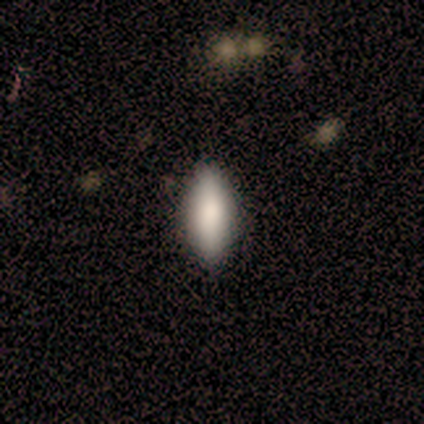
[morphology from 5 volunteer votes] smooth 100%, featured or disk 0%, star or artifact 0%. Down the decision tree: how rounded — in between (80%); merging — none (80%).